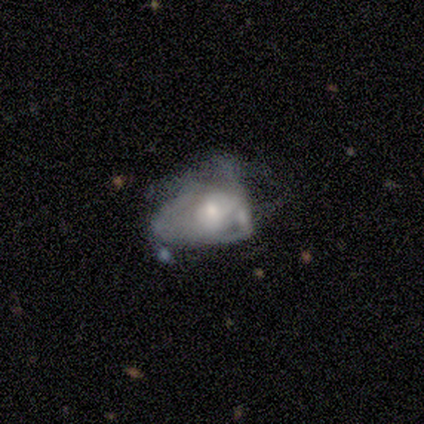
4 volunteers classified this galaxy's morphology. A featured or disk galaxy (75%) with no bar (100%), medium (100%) spiral arms (67%) and a small central bulge (67%). Merging: major disturbance (50%).